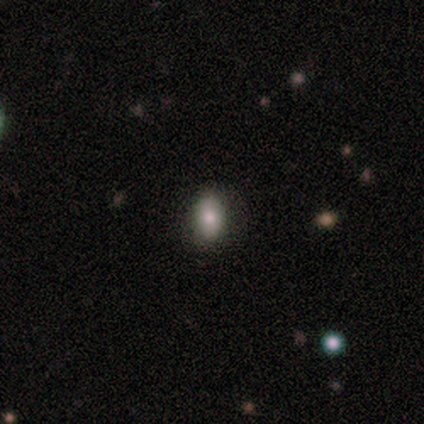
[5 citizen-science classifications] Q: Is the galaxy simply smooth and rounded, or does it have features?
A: smooth — 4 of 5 (80%).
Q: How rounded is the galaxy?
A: in between — 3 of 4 (75%).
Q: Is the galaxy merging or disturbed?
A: none — 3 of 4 (75%).